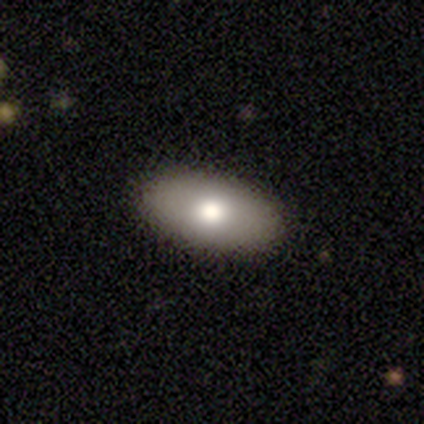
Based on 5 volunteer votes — smooth-or-featured: smooth: 80% | featured or disk: 20% | star or artifact: 0%
  how-rounded: in between: 100% | round: 0% | cigar-shaped: 0%
  merging: none: 100% | minor disturbance: 0% | major disturbance: 0% | merger: 0%